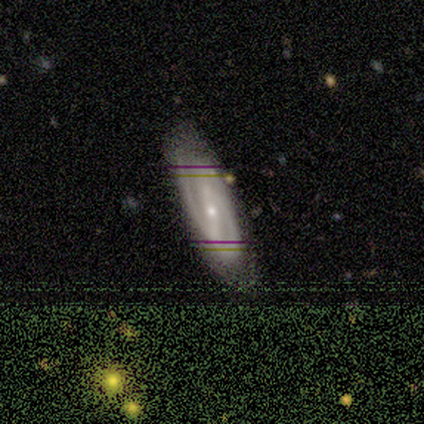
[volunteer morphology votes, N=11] This appears to be a featured or disk galaxy (73%) with a strong bar (50%), 2 (100%) medium (67%) spiral arms (100%) and a small central bulge (100%). Merging: none (78%).